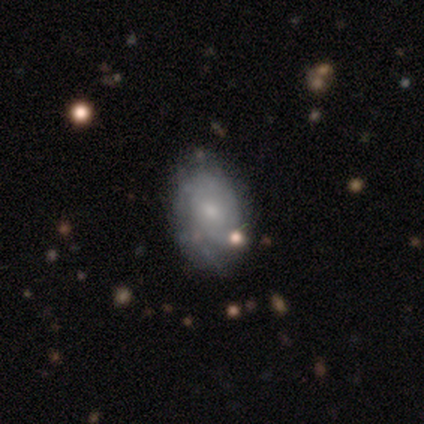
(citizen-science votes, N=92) A featured or disk galaxy (53%) with no bar (84%), tight (81%) spiral arms (55%) and a small central bulge (71%). Merging: none (68%).